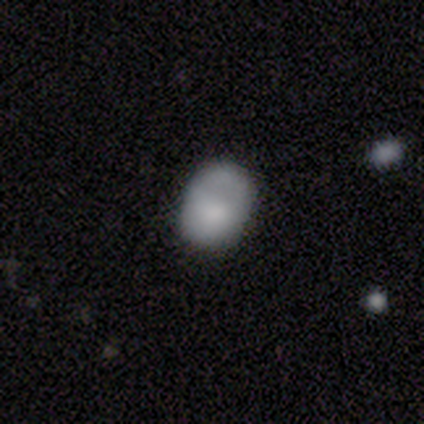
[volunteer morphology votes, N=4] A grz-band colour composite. It shows a smooth galaxy with no disk features (75%) that is in between round and cigar-shaped (100%). Merging: none (67%).